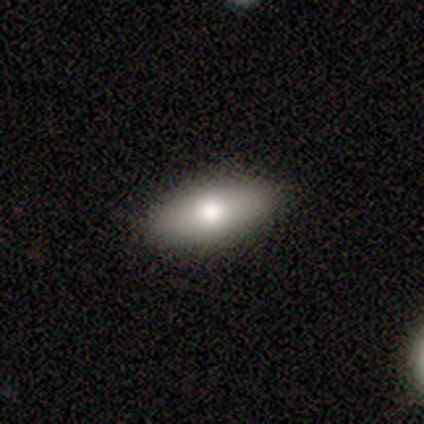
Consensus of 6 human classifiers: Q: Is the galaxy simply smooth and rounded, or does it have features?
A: smooth — 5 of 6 (83%).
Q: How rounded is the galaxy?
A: in between — 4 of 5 (80%).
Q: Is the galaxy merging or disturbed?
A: none — 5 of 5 (100%).